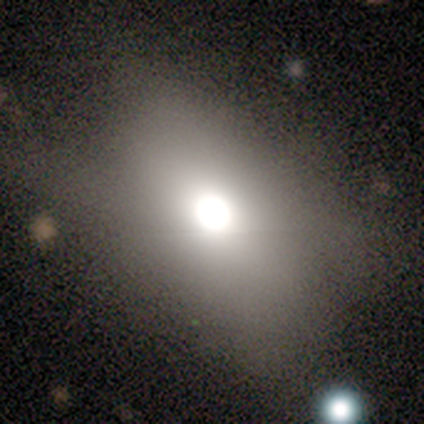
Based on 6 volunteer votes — Volunteers were most divided on "merging": none: 60%, minor disturbance: 20%, major disturbance: 20%, merger: 0%. More confident: how rounded — in between (100%); smooth or featured — smooth (67%).